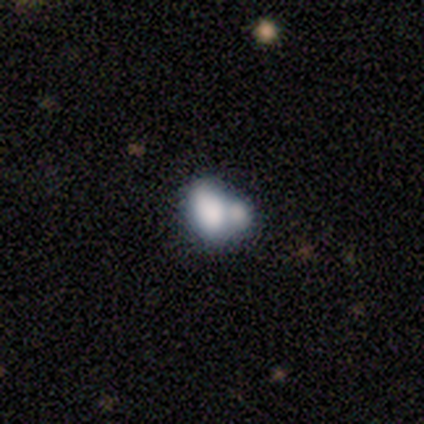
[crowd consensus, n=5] This is likely a featured or disk galaxy (60%). It is clearly not viewed edge-on (100%). Bar: clearly no (100%). Spiral arm pattern: clearly no (100%). Central bulge: likely none (67%). Merging: clearly merger (80%).